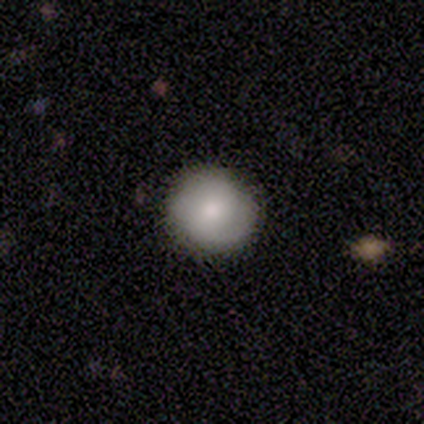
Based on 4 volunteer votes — Q: Smooth or featured?
A: featured or disk (75%); runner-up: smooth (25%)
Q: Edge-on disk?
A: no (100%)
Q: Bar?
A: no (100%)
Q: Spiral arms?
A: yes (100%)
Q: Spiral winding?
A: medium (67%); runner-up: loose (33%)
Q: Spiral arm count?
A: 1 (33%); tied with: 2 (33%); 3 (33%)
Q: Bulge size?
A: large (67%); runner-up: moderate (33%)
Q: Merging?
A: none (100%)